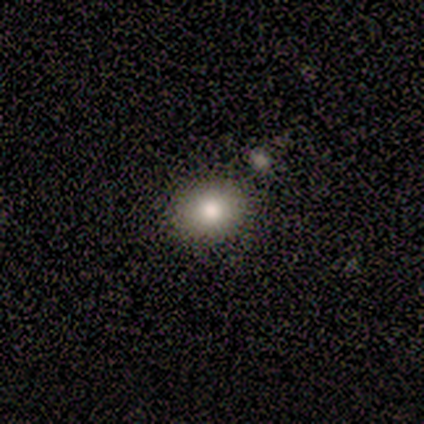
Volunteers were most divided on "smooth or featured": smooth: 80%, star or artifact: 20%, featured or disk: 0%. More confident: how rounded — round (100%); merging — none (100%).